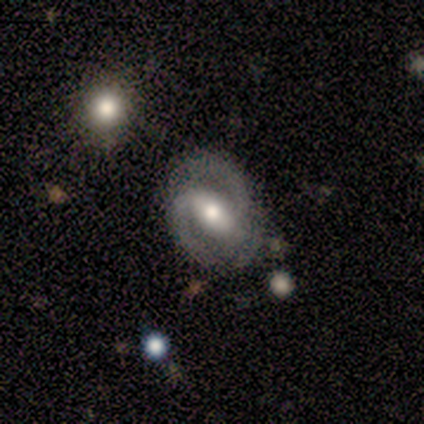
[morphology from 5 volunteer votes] This appears to be a featured or disk galaxy (80%) with a strong bar (50%), 2 (100%) tight (75%) spiral arms (100%) and a large central bulge (50%, tied with moderate). Merging: none (80%).